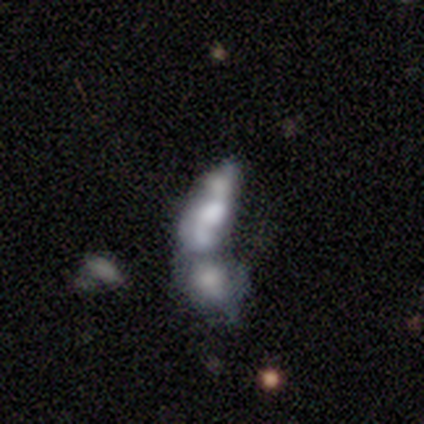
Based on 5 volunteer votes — Volunteers were most divided on "bulge size": none: 67%, small: 33%, dominant: 0%, large: 0%, moderate: 0%. More confident: edge-on disk — no (100%); bar — no (100%); spiral arms — no (100%); merging — merger (75%); smooth or featured — featured or disk (60%).